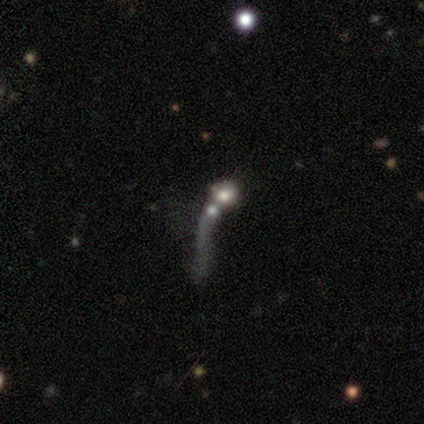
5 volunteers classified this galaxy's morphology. A featured or disk galaxy (40%, tied with star or artifact) with no bar (100%), no spiral arms (100%) and a large central bulge (50%, tied with moderate). Merging: merger (67%).